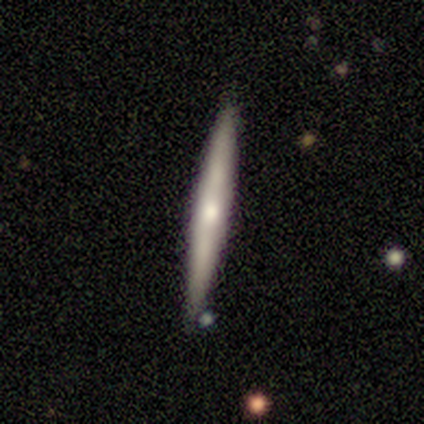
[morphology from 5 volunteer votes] Smooth or featured? 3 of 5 (60%) said smooth. How rounded? 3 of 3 (100%) said cigar-shaped. Merging? 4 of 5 (80%) said none.